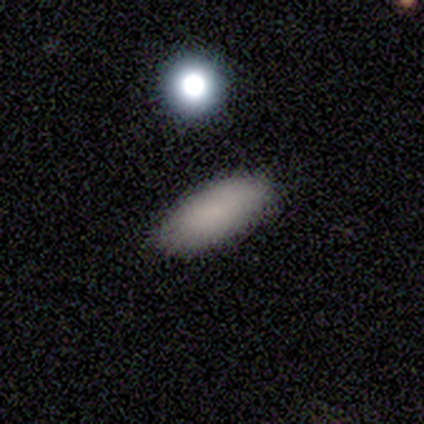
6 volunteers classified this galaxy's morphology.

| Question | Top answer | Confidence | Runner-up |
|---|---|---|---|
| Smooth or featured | smooth | 100% | — |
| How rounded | in between | 100% | — |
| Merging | none | 100% | — |